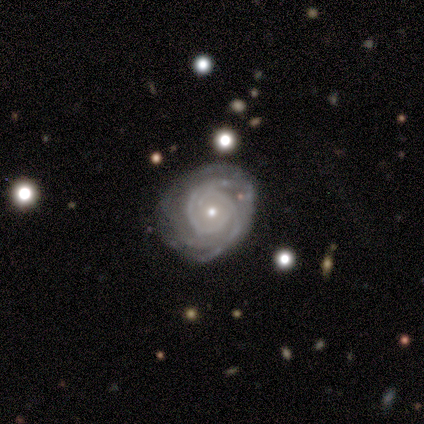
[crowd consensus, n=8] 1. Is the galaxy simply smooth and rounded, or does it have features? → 88% featured or disk, 12% smooth, 0% star or artifact.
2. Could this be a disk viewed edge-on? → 86% no, 14% yes.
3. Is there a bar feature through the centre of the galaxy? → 83% no, 17% strong, 0% weak.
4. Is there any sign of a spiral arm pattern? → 100% yes, 0% no.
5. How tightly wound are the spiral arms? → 83% tight, 17% medium, 0% loose.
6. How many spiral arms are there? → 50% 3, 33% 2, 17% can't tell, 0% 1, 0% 4, 0% more than 4.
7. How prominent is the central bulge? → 50% moderate, 33% small, 17% none, 0% dominant, 0% large.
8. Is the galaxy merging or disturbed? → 88% none, 12% minor disturbance, 0% major disturbance, 0% merger.